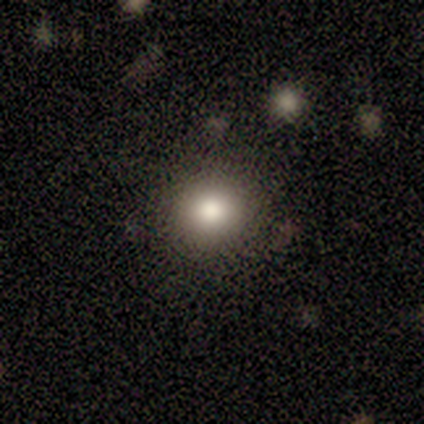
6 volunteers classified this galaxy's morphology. type=smooth (33%, tied with featured or disk and star or artifact); roundness=round (100%); merging=none (75%).